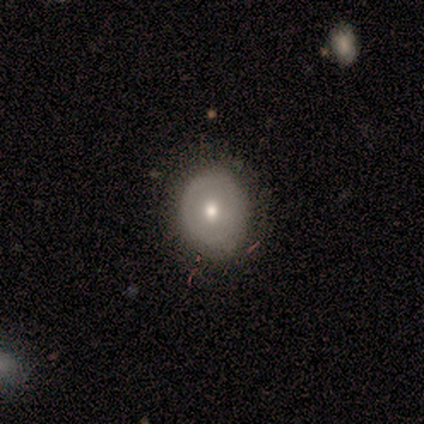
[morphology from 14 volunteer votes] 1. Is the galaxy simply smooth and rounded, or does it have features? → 57% featured or disk, 43% smooth, 0% star or artifact.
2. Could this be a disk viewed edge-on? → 100% no, 0% yes.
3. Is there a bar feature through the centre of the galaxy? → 100% no, 0% strong, 0% weak.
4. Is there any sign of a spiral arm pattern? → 88% no, 12% yes.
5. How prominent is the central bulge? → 62% small, 38% moderate, 0% dominant, 0% large, 0% none.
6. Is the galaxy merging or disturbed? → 93% none, 7% minor disturbance, 0% major disturbance, 0% merger.